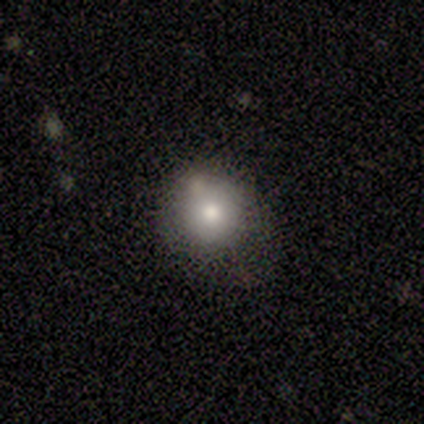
Smooth or featured? 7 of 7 (100%) said smooth. How rounded? 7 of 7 (100%) said round. Merging? 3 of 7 (43%) said none.